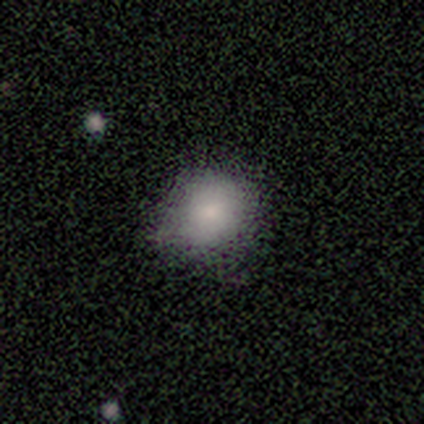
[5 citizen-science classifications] This is clearly a smooth galaxy (80%). How rounded: likely round (75%). Merging: likely none (75%).